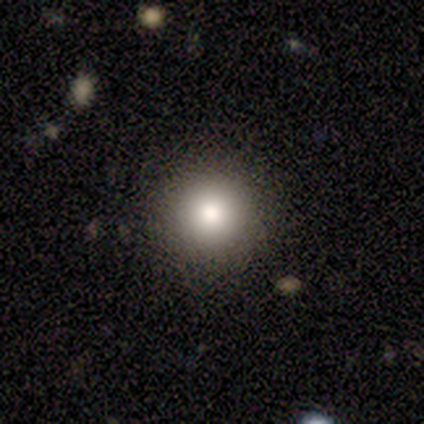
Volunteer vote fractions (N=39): A smooth galaxy with no disk features (74%) that is round (97%). Merging: none (94%).